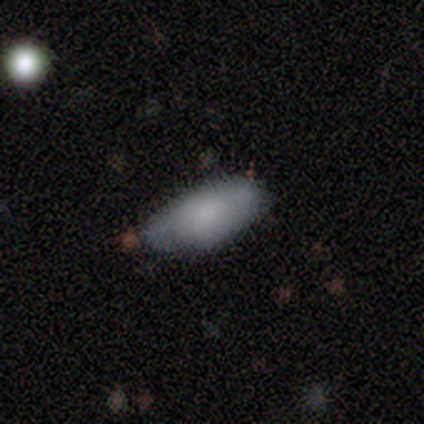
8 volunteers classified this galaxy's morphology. Smooth or featured? 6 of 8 (75%) said smooth. How rounded? 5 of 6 (83%) said in between. Merging? 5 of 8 (62%) said minor disturbance.